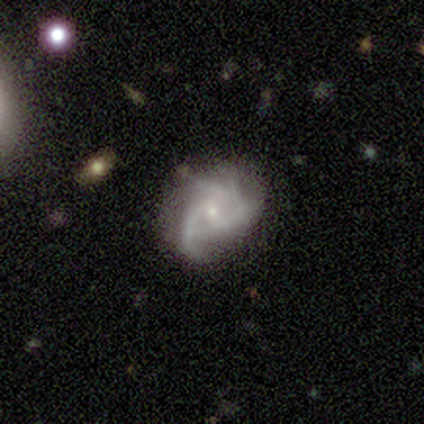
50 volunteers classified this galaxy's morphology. featured or disk 86%, smooth 8%, star or artifact 6%. Down the decision tree: edge-on disk — no (98%); bar — no (69%); spiral arms — yes (93%); spiral arm count — 3 (41%); spiral winding — medium (51%); bulge size — small (76%); merging — none (66%).